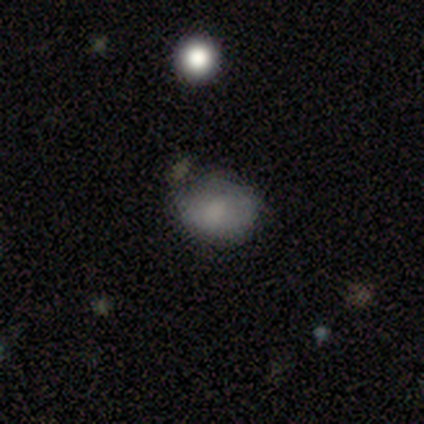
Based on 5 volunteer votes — A smooth galaxy with no disk features (100%) that is round (60%). Merging: none (40%).